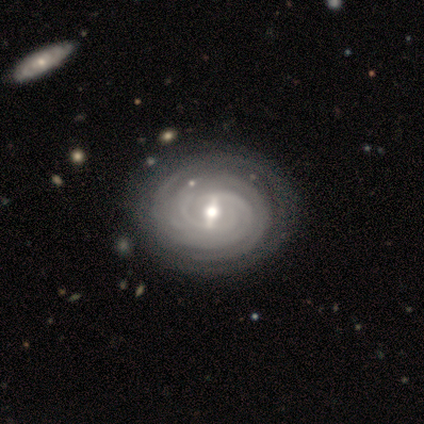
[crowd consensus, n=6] Volunteers were most divided on "spiral winding" (2-way tie): tight: 50%, medium: 50%, loose: 0%. More confident: smooth or featured — featured or disk (100%); edge-on disk — no (100%); spiral arms — yes (100%); merging — none (100%); bulge size — small (67%); bar — strong (50%); spiral arm count — can't tell (50%).